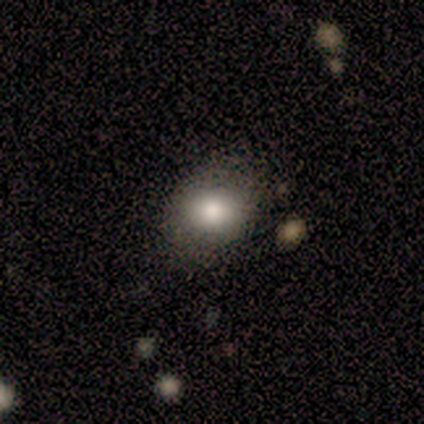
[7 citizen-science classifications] Smooth or featured: smooth — 86% (star or artifact — 14%)
How rounded: round — 50% (tied with in between — 50%)
Merging: none — 83% (minor disturbance — 17%)